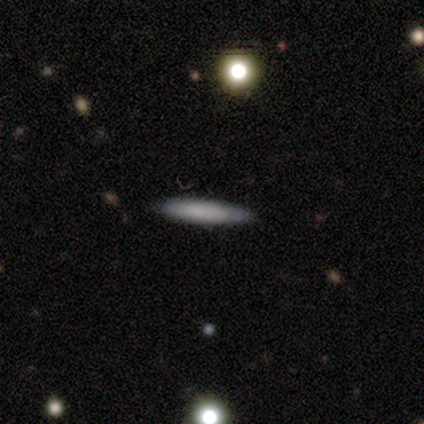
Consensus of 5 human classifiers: Smooth or featured?
  - smooth: 80% *
  - featured or disk: 20%
  - star or artifact: 0%
How rounded?
  - cigar-shaped: 100% *
  - round: 0%
  - in between: 0%
Merging?
  - none: 100% *
  - minor disturbance: 0%
  - major disturbance: 0%
  - merger: 0%